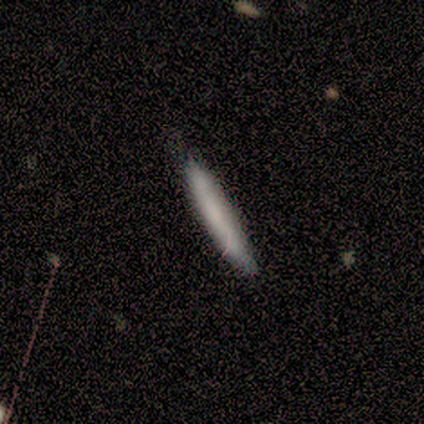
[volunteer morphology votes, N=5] smooth_or_featured: smooth (p=0.60) [alt: featured or disk p=0.40]
how_rounded: cigar-shaped (p=1.00)
merging: none (p=1.00)